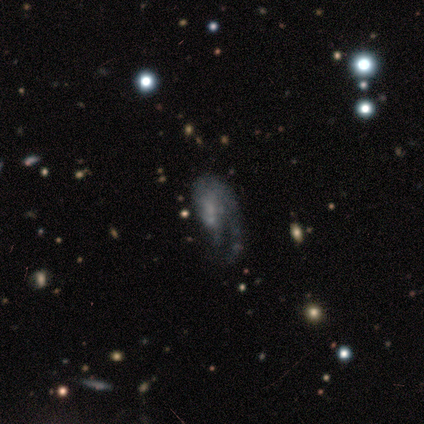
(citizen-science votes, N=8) smooth-or-featured: featured or disk: 75% | smooth: 12% | star or artifact: 12%
  disk-edge-on: no: 100% | yes: 0%
    bar: no: 83% | strong: 17% | weak: 0%
    has-spiral-arms: yes: 100% | no: 0%
      spiral-winding: medium: 50% (tied) | loose: 50% (tied) | tight: 0%
      spiral-arm-count: 1: 83% | 2: 17% | 3: 0% | 4: 0% | more than 4: 0% | can't tell: 0%
    bulge-size: small: 50% | moderate: 33% | none: 17% | dominant: 0% | large: 0%
  merging: major disturbance: 57% | none: 29% | minor disturbance: 14% | merger: 0%